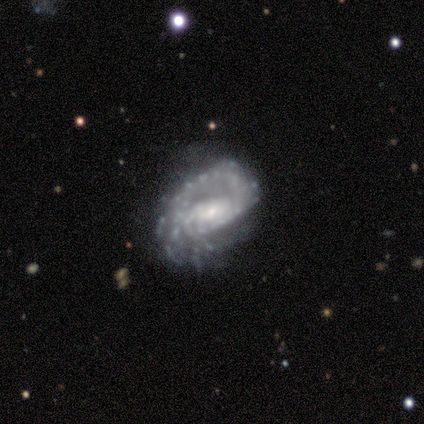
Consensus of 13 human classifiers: Morphology: type=featured or disk (100%); edge-on=no (100%); bar=no (62%); spiral arms=yes (92%); winding=tight (58%); arm count=1 (33%); bulge=small (62%); merging=none (54%).